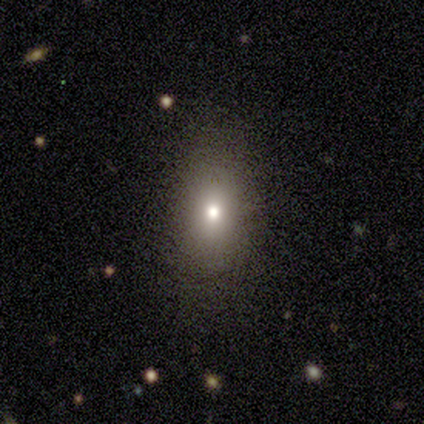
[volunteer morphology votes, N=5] smooth_or_featured: smooth (p=0.80) [alt: featured or disk p=0.20]
how_rounded: round (p=0.50) [alt: in between p=0.25]
merging: none (p=0.40) [tied with: minor disturbance p=0.40]